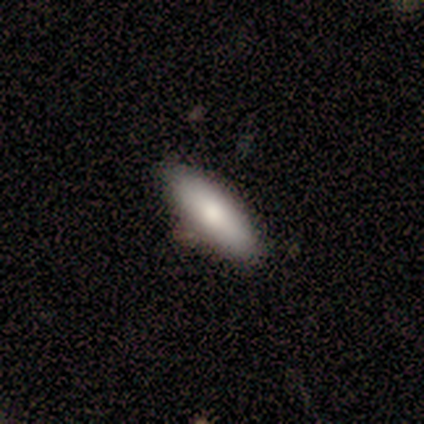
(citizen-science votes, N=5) This appears to be a smooth galaxy with no disk features (60%) that is cigar-shaped (100%). Merging: none (100%).